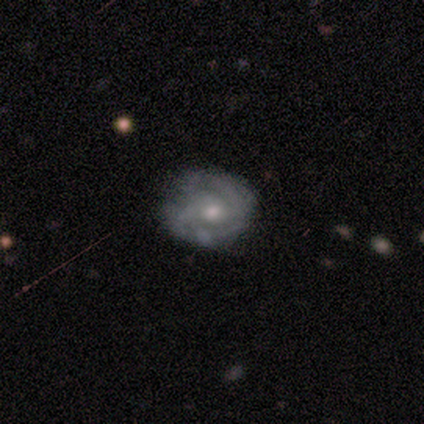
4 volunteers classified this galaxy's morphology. This appears to be a smooth galaxy with no disk features (75%) that is round (67%). Merging: none (75%).